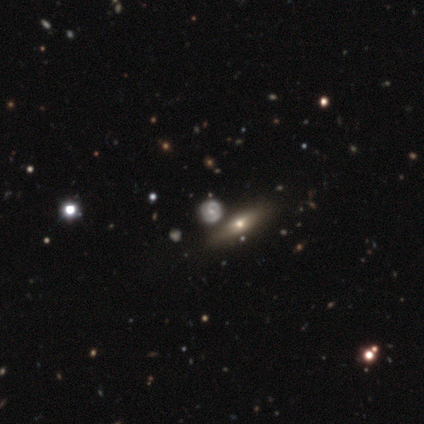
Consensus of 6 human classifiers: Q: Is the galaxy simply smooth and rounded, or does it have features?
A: featured or disk — 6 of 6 (100%).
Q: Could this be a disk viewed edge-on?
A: no — 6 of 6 (100%).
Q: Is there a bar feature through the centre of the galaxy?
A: no — 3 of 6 (50%).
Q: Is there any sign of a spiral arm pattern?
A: yes — 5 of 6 (83%).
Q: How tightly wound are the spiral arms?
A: tight — 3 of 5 (60%).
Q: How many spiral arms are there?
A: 3 — 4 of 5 (80%).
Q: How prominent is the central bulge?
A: small — 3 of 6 (50%).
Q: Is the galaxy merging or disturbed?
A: none — 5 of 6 (83%).